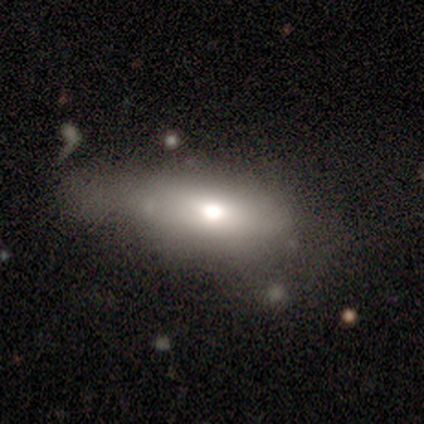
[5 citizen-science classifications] Overall: featured or disk (60%; smooth 40%). Edge-on disk: no (67%; yes 33%). Bar: weak (50%, tied with no). Spiral arms: no (100%). Bulge size: moderate (100%). Merging: minor disturbance (40%, tied with major disturbance).